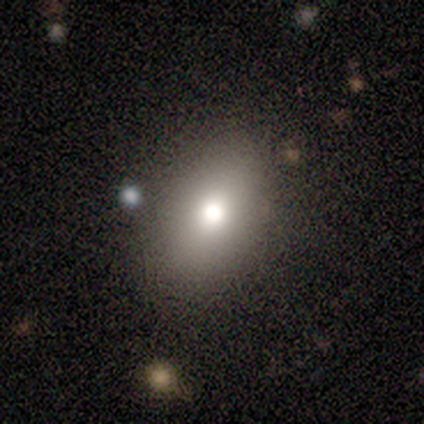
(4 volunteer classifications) This appears to be a smooth galaxy with no disk features (100%) that is in between round and cigar-shaped (75%). Merging: none (75%).